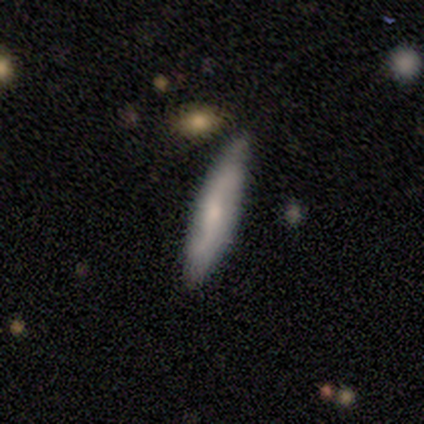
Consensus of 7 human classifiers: Smooth or featured: featured or disk — 57% (smooth — 43%)
Edge-on disk: yes — 50% (tied with no — 50%)
Edge-on bulge: none — 50% (tied with rounded — 50%)
Merging: none — 71% (minor disturbance — 29%)